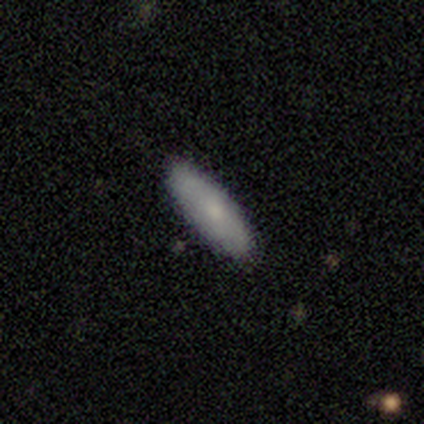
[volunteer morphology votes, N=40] smooth_or_featured: smooth (p=0.78) [alt: featured or disk p=0.23]
how_rounded: in between (p=0.52) [alt: cigar-shaped p=0.45]
merging: none (p=0.93) [alt: minor disturbance p=0.07]